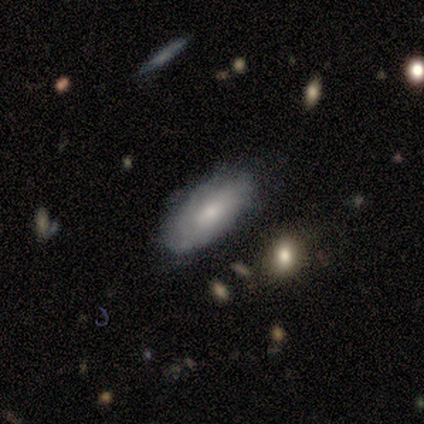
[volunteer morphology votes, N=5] type=smooth (40%, tied with featured or disk); roundness=in between (50%, tied with cigar-shaped); merging=none (100%).